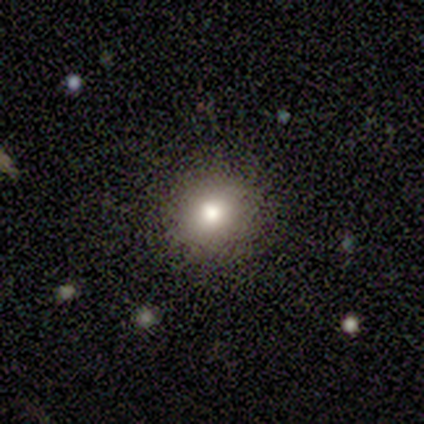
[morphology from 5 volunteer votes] type=smooth (80%); roundness=round (100%); merging=none (100%).